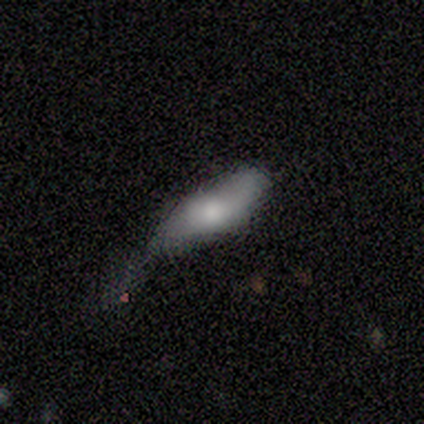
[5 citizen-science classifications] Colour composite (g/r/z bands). It shows a featured or disk galaxy (60%) with no bar (100%), 2 (100%) loose (100%) spiral arms (100%) and a large central bulge (50%, tied with moderate). Merging: minor disturbance (60%).